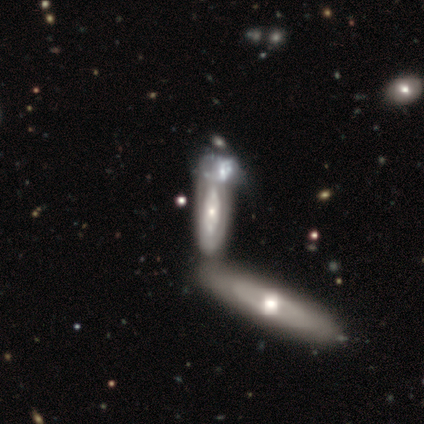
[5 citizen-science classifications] Smooth or featured?
  - smooth: 60% *
  - featured or disk: 40%
  - star or artifact: 0%
How rounded?
  - cigar-shaped: 67% *
  - in between: 33%
  - round: 0%
Merging?
  - merger: 100% *
  - none: 0%
  - minor disturbance: 0%
  - major disturbance: 0%